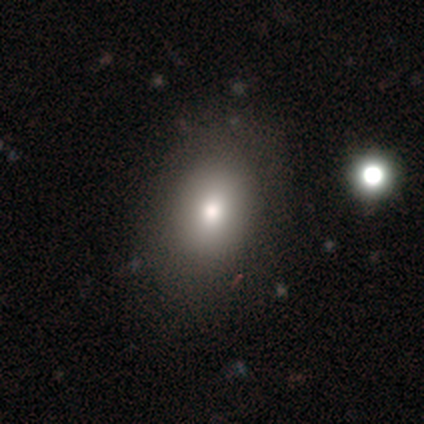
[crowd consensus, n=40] smooth 90%, featured or disk 5%, star or artifact 5%. Down the decision tree: how rounded — in between (69%); merging — none (84%).